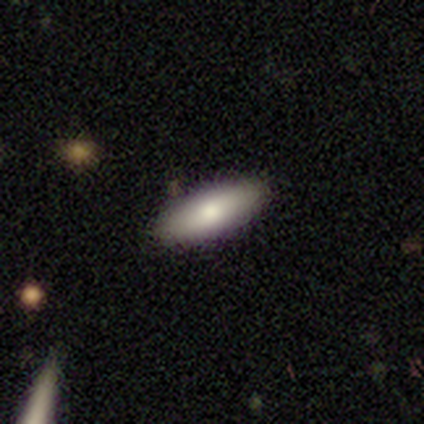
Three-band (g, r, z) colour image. It shows a smooth galaxy with no disk features (80%) that is in between round and cigar-shaped (50%, tied with cigar-shaped). Merging: none (100%).